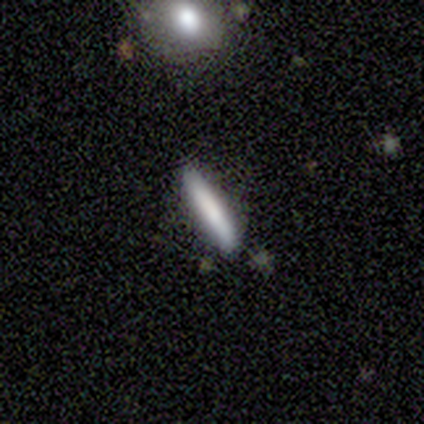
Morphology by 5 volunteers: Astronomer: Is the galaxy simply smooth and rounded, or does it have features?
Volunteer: smooth — 80%.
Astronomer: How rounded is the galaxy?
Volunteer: cigar-shaped — 100%.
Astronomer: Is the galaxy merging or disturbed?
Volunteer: none — 80%.